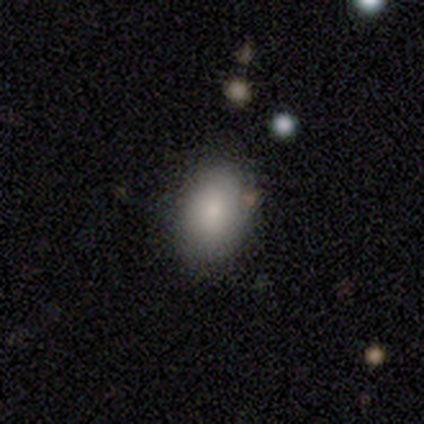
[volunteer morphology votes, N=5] Overall: smooth (100%). How rounded: in between (100%). Merging: none (80%).